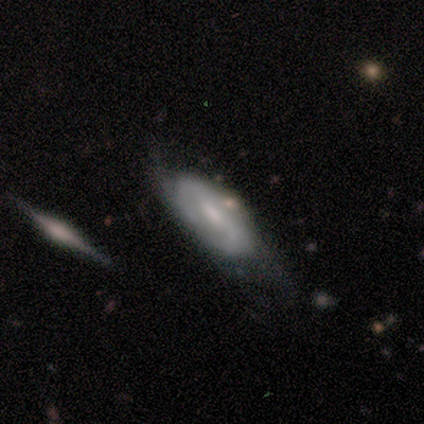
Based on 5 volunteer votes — This appears to be a featured or disk galaxy (80%) with a weak bar (50%, tied with no), loose (67%) spiral arms (75%) and no central bulge (50%). Merging: minor disturbance (60%).